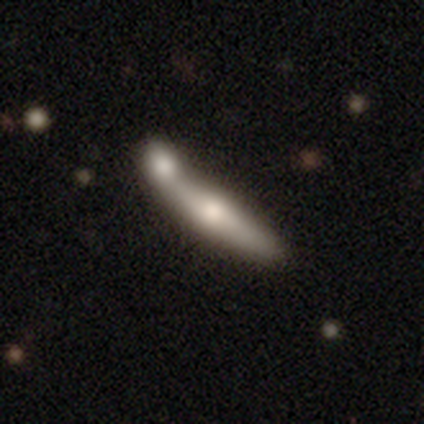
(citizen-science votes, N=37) A smooth galaxy with no disk features (57%) that is cigar-shaped (81%). Merging: merger (58%).